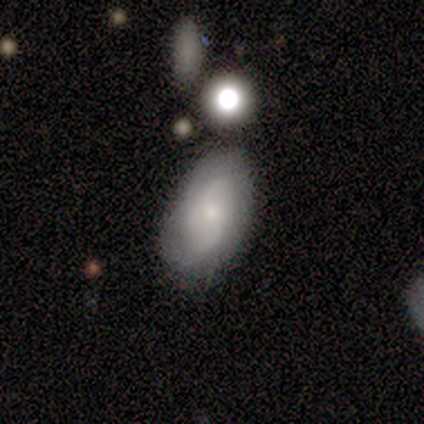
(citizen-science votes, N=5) Volunteers were most divided on "spiral winding" (2-way tie): medium: 50%, loose: 50%, tight: 0%; "bulge size" (2-way tie): moderate: 50%, small: 50%, dominant: 0%, large: 0%, none: 0%. More confident: bar — no (100%); spiral arms — yes (100%); spiral arm count — 2 (100%); edge-on disk — no (67%); smooth or featured — featured or disk (60%); merging — minor disturbance (60%).